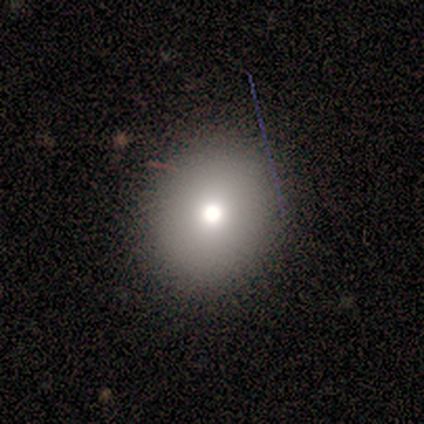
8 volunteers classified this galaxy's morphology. Smooth or featured? 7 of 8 (88%) said smooth. How rounded? 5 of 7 (71%) said round. Merging? 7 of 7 (100%) said none.